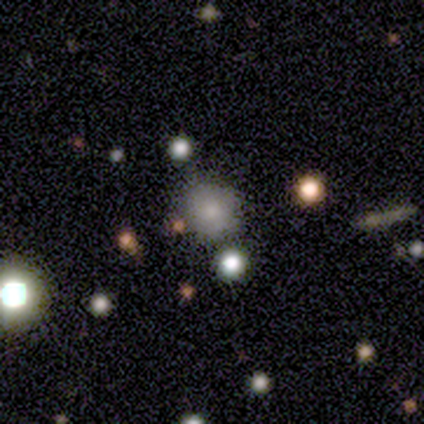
Volunteers were most divided on "smooth or featured": smooth: 66%, featured or disk: 17%, star or artifact: 17%. More confident: how rounded — round (93%); merging — none (79%).